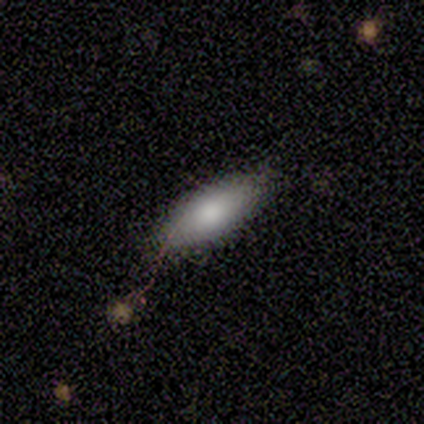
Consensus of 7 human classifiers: A smooth galaxy with no disk features (100%) that is in between round and cigar-shaped (71%).

Vote fractions:
- Smooth or featured? smooth: 100% / featured or disk: 0% / star or artifact: 0%
- How rounded? in between: 71% / cigar-shaped: 29% / round: 0%
- Merging? none: 71% / minor disturbance: 29% / major disturbance: 0% / merger: 0%